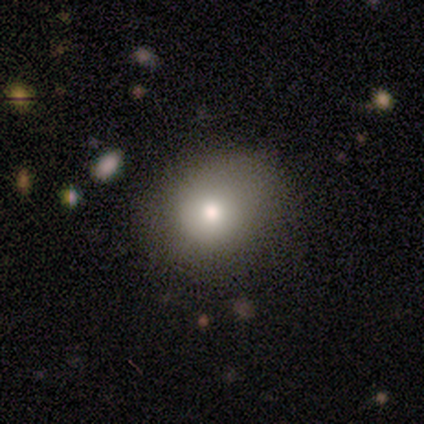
smooth-or-featured: smooth: 80% | star or artifact: 20% | featured or disk: 0%
  how-rounded: round: 75% | in between: 25% | cigar-shaped: 0%
  merging: none: 100% | minor disturbance: 0% | major disturbance: 0% | merger: 0%